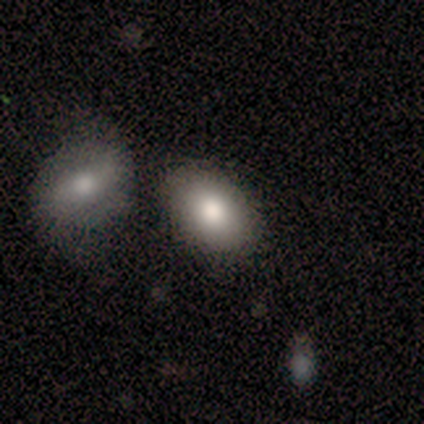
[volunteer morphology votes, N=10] Smooth or featured?
  - smooth: 90% *
  - featured or disk: 10%
  - star or artifact: 0%
How rounded?
  - in between: 89% *
  - round: 11%
  - cigar-shaped: 0%
Merging?
  - none: 70% *
  - minor disturbance: 20%
  - merger: 10%
  - major disturbance: 0%